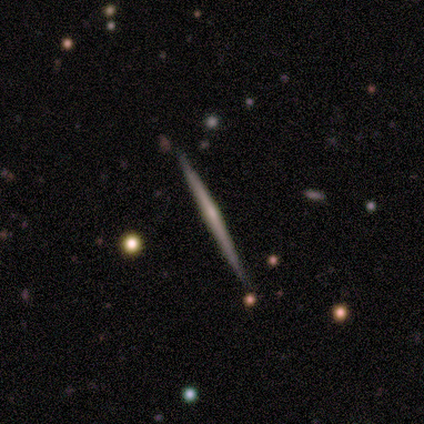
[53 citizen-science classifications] This is likely a featured or disk galaxy (72%). It is clearly viewed edge-on (100%). Edge-on bulge: possibly rounded (58%). Merging: clearly none (92%).